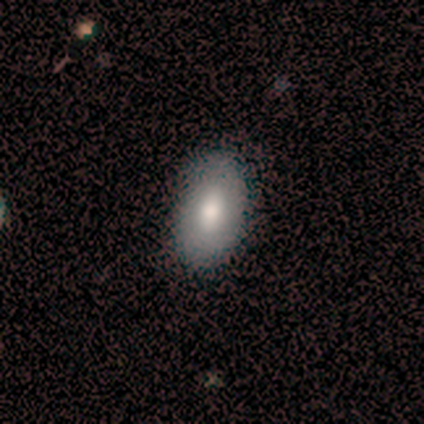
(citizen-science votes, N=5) A featured or disk galaxy (60%) with a weak bar (50%, tied with no), no spiral arms (100%) and a large central bulge (100%). Merging: none (100%).